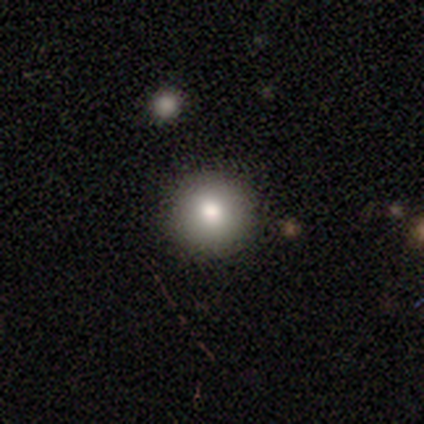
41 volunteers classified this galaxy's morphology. A smooth galaxy with no disk features (76%) that is round (97%).

Vote fractions:
- Smooth or featured? smooth: 76% / featured or disk: 12% / star or artifact: 12%
- How rounded? round: 97% / in between: 3% / cigar-shaped: 0%
- Merging? none: 67% / merger: 6% / minor disturbance: 3% / major disturbance: 0%